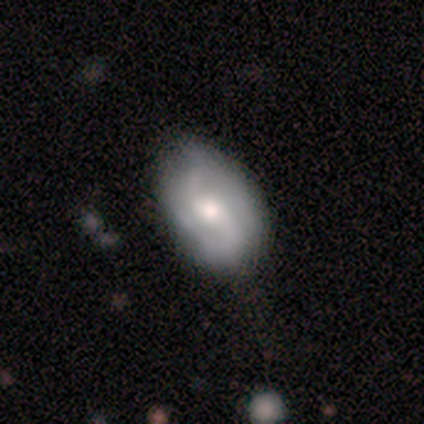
This is possibly a smooth galaxy (50%, tied with featured or disk). How rounded: clearly in between (100%). Merging: clearly none (100%).